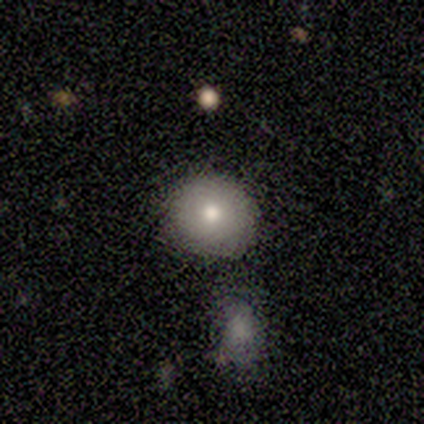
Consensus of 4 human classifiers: This is possibly a smooth galaxy (50%). How rounded: clearly round (100%). Merging: clearly none (100%).